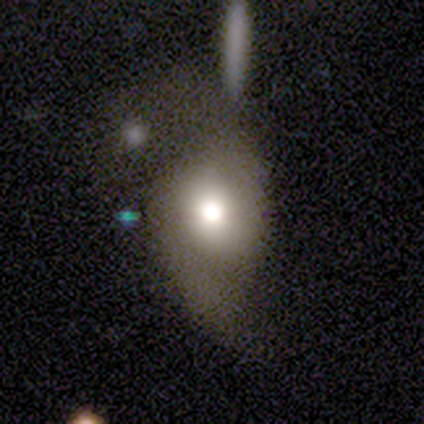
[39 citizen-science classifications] Smooth or featured?
  - smooth: 67% *
  - featured or disk: 31%
  - star or artifact: 3%
How rounded?
  - in between: 58% *
  - round: 42%
  - cigar-shaped: 0%
Merging?
  - major disturbance: 34% *
  - minor disturbance: 26%
  - none: 24%
  - merger: 16%